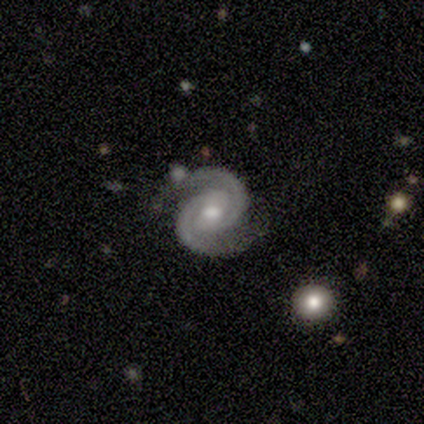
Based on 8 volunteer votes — smooth_or_featured: featured or disk (p=0.88) [alt: smooth p=0.12]
disk_edge_on: no (p=1.00)
bar: weak (p=0.43) [tied with: no p=0.43]
has_spiral_arms: yes (p=1.00)
spiral_winding: tight (p=0.57) [alt: medium p=0.43]
spiral_arm_count: 2 (p=1.00)
bulge_size: moderate (p=0.71) [alt: large p=0.14]
merging: none (p=0.75) [alt: minor disturbance p=0.12]